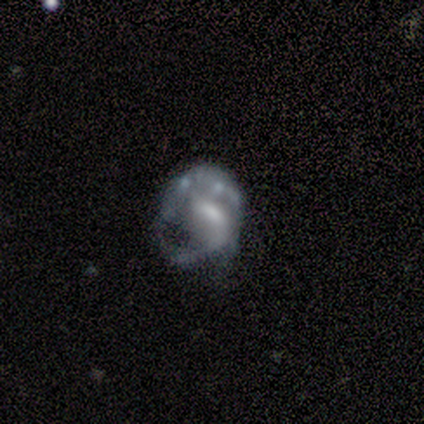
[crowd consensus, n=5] This is clearly a featured or disk galaxy (100%). It is clearly not viewed edge-on (100%). Bar: marginally weak (40%, tied with no). Spiral arm pattern: clearly yes (80%). Spiral arm count: possibly 1 (50%). Spiral winding: possibly tight (50%). Central bulge: likely moderate (60%). Merging: marginally minor disturbance (40%, tied with major disturbance).